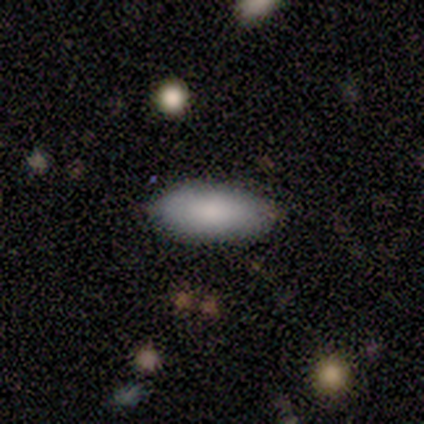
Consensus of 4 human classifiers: Smooth or featured?
  - smooth: 100% *
  - featured or disk: 0%
  - star or artifact: 0%
How rounded?
  - in between: 100% *
  - round: 0%
  - cigar-shaped: 0%
Merging?
  - none: 100% *
  - minor disturbance: 0%
  - major disturbance: 0%
  - merger: 0%